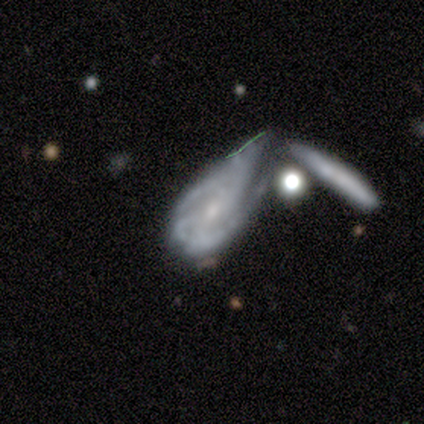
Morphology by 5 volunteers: smooth_or_featured: featured or disk (p=0.80) [alt: star or artifact p=0.20]
disk_edge_on: no (p=1.00)
bar: strong (p=0.50) [alt: weak p=0.25]
has_spiral_arms: yes (p=1.00)
spiral_winding: medium (p=1.00)
spiral_arm_count: 2 (p=0.50) [alt: 4 p=0.25]
bulge_size: small (p=0.75) [alt: moderate p=0.25]
merging: minor disturbance (p=0.50) [tied with: merger p=0.50]